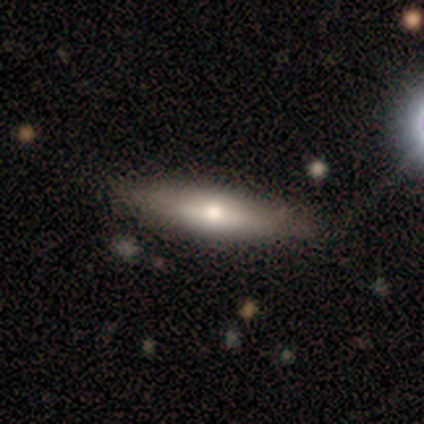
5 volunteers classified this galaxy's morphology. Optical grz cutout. It shows a featured or disk galaxy (60%) viewed edge-on (100%) with a rounded central bulge (67%). Merging: none (80%).